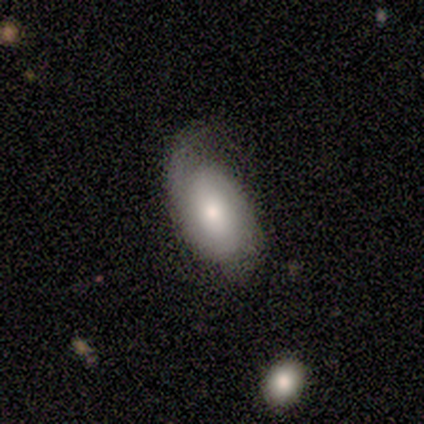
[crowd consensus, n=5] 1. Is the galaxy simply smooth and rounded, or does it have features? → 60% featured or disk, 40% smooth, 0% star or artifact.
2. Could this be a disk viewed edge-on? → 100% no, 0% yes.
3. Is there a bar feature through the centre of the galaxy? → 67% no, 33% weak, 0% strong.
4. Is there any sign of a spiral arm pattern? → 100% yes, 0% no.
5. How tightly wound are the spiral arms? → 67% tight, 33% medium, 0% loose.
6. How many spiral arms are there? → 67% can't tell, 33% 2, 0% 1, 0% 3, 0% 4, 0% more than 4.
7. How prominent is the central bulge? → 67% moderate, 33% small, 0% dominant, 0% large, 0% none.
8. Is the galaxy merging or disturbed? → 60% none, 40% minor disturbance, 0% major disturbance, 0% merger.